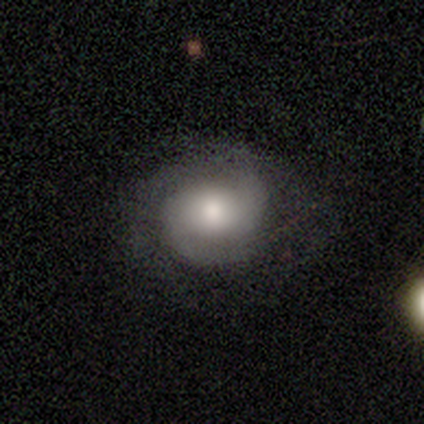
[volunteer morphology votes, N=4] smooth-or-featured: featured or disk: 100% | smooth: 0% | star or artifact: 0%
  disk-edge-on: no: 100% | yes: 0%
    bar: no: 100% | strong: 0% | weak: 0%
    has-spiral-arms: yes: 100% | no: 0%
      spiral-winding: tight: 50% (tied) | medium: 50% (tied) | loose: 0%
      spiral-arm-count: 2: 100% | 1: 0% | 3: 0% | 4: 0% | more than 4: 0% | can't tell: 0%
    bulge-size: moderate: 50% | large: 25% | small: 25% | dominant: 0% | none: 0%
  merging: none: 75% | minor disturbance: 25% | major disturbance: 0% | merger: 0%